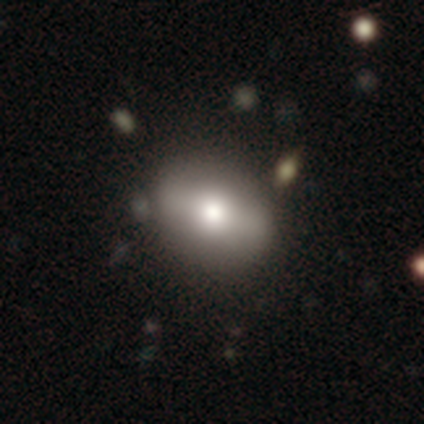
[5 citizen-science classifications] Volunteers were most divided on "smooth or featured": featured or disk: 60%, smooth: 40%, star or artifact: 0%. More confident: edge-on disk — no (100%); spiral arms — no (100%); merging — none (100%); bar — strong (67%); bulge size — large (67%).